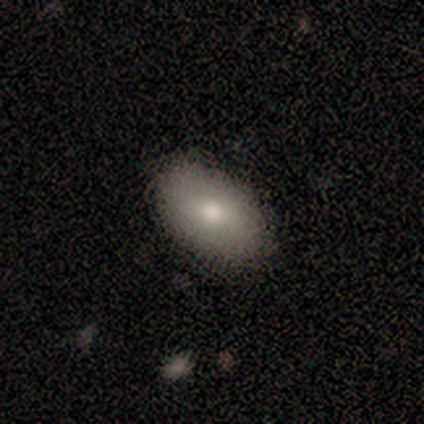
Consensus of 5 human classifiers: Q: Smooth or featured?
A: smooth (60%); runner-up: featured or disk (40%)
Q: How rounded?
A: in between (100%)
Q: Merging?
A: none (100%)